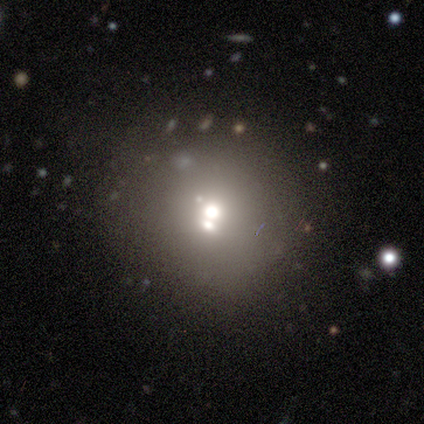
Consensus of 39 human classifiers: A smooth galaxy with no disk features (77%) that is round (97%). Merging: none (46%).